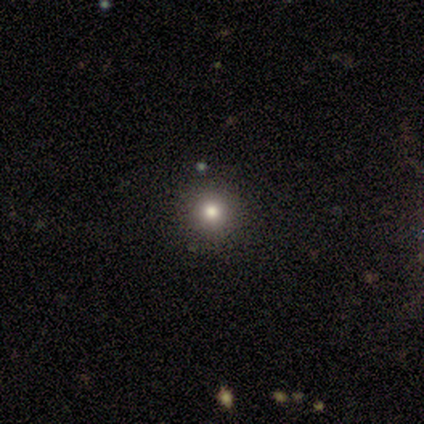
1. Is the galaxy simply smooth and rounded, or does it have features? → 100% smooth, 0% featured or disk, 0% star or artifact.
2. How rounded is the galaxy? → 100% round, 0% in between, 0% cigar-shaped.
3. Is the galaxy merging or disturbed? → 80% none, 20% minor disturbance, 0% major disturbance, 0% merger.